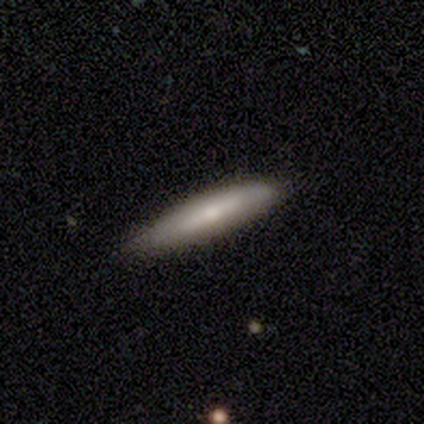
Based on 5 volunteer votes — Overall: smooth (60%; featured or disk 40%). How rounded: cigar-shaped (100%). Merging: none (60%; minor disturbance 20%).